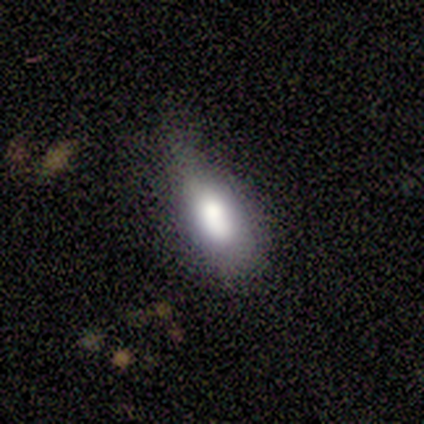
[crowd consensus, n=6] A smooth galaxy with no disk features (83%) that is in between round and cigar-shaped (100%).

Vote fractions:
- Smooth or featured? smooth: 83% / featured or disk: 17% / star or artifact: 0%
- How rounded? in between: 100% / round: 0% / cigar-shaped: 0%
- Merging? minor disturbance: 50% / major disturbance: 33% / none: 17% / merger: 0%